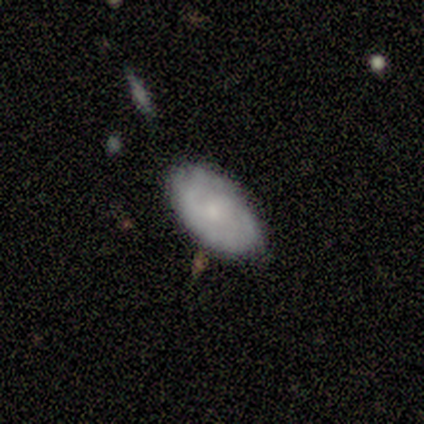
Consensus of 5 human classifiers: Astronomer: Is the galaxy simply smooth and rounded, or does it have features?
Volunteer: featured or disk — 60% (runner-up: smooth, 40%).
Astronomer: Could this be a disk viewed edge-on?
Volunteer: no — 100%.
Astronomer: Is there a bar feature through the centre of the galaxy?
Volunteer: no — 100%.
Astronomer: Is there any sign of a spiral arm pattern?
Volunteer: yes — 67%.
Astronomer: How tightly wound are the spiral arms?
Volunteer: tight — 50%, tied with medium at 50%.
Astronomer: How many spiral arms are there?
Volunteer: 2 — 50%, tied with can't tell at 50%.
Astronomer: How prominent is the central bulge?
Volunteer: moderate — 67%.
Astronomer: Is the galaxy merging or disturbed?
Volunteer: none — 60% (runner-up: minor disturbance, 40%).